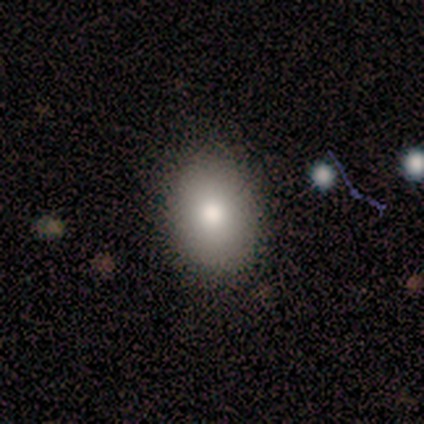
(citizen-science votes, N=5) Morphology: type=smooth (80%); roundness=in between (100%); merging=none (100%).